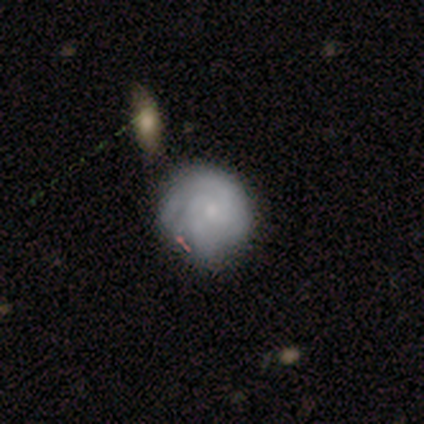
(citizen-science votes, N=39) featured or disk 74%, smooth 26%, star or artifact 0%. Down the decision tree: edge-on disk — no (100%); bar — no (72%); spiral arms — yes (90%); spiral arm count — 2 (46%); spiral winding — tight (62%); bulge size — small (66%); merging — none (44%).